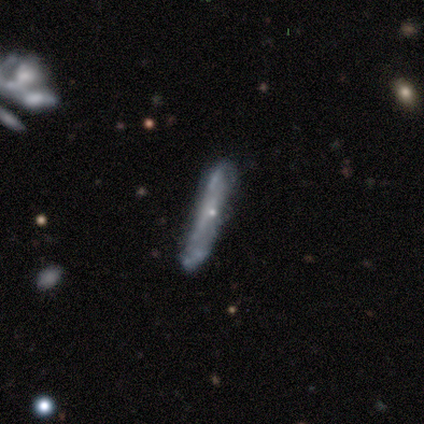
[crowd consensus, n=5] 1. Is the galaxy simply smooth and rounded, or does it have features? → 60% smooth, 40% featured or disk, 0% star or artifact.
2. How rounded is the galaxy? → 100% cigar-shaped, 0% round, 0% in between.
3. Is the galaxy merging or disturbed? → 60% none, 40% minor disturbance, 0% major disturbance, 0% merger.